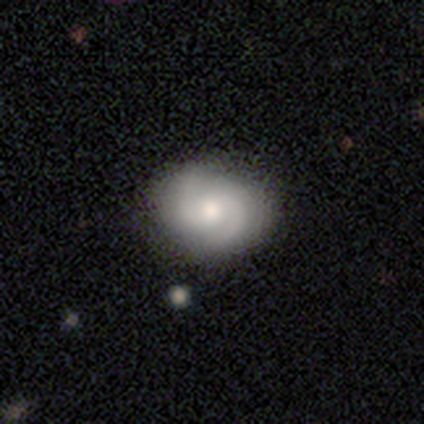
Q: Smooth or featured?
A: featured or disk (74%); runner-up: smooth (21%)
Q: Edge-on disk?
A: no (100%)
Q: Bar?
A: no (76%); runner-up: weak (21%)
Q: Spiral arms?
A: yes (100%)
Q: Spiral winding?
A: tight (48%); tied with: medium (48%)
Q: Spiral arm count?
A: 2 (97%); runner-up: can't tell (3%)
Q: Bulge size?
A: moderate (79%); runner-up: small (14%)
Q: Merging?
A: none (51%); runner-up: merger (8%)